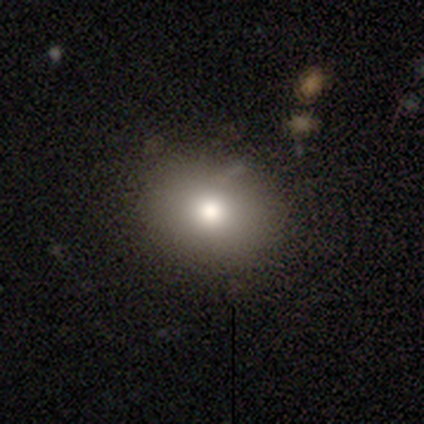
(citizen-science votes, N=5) Volunteers were most divided on "bulge size" (3-way tie): large: 33%, moderate: 33%, small: 33%, dominant: 0%, none: 0%. More confident: edge-on disk — no (100%); bar — no (100%); spiral arms — no (100%); merging — none (75%); smooth or featured — featured or disk (60%).